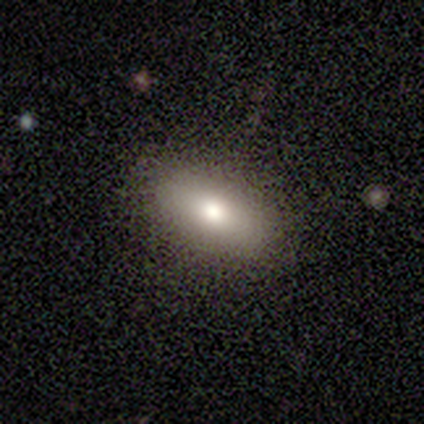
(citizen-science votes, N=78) Smooth or featured: smooth — 85% (featured or disk — 15%)
How rounded: in between — 88% (cigar-shaped — 9%)
Merging: none — 44% (minor disturbance — 5%)